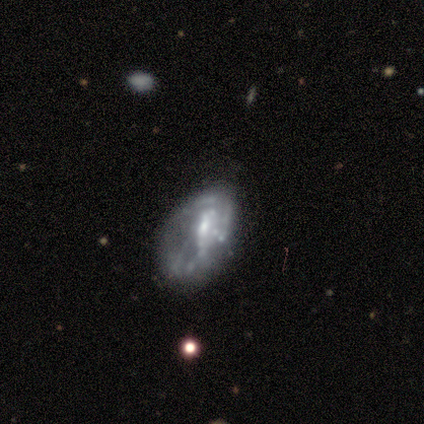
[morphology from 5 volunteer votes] type=featured or disk (60%); edge-on=no (67%); bar=weak (50%, tied with no); spiral arms=yes (50%, tied with no); winding=medium (100%); arm count=can't tell (100%); bulge=small (100%); merging=minor disturbance (50%).